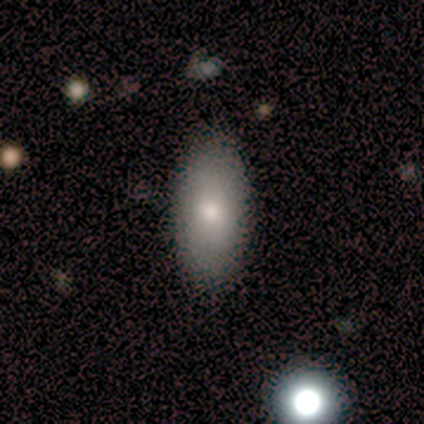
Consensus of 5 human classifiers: A smooth galaxy with no disk features (80%) that is in between round and cigar-shaped (100%).

Vote fractions:
- Smooth or featured? smooth: 80% / featured or disk: 20% / star or artifact: 0%
- How rounded? in between: 100% / round: 0% / cigar-shaped: 0%
- Merging? none: 100% / minor disturbance: 0% / major disturbance: 0% / merger: 0%